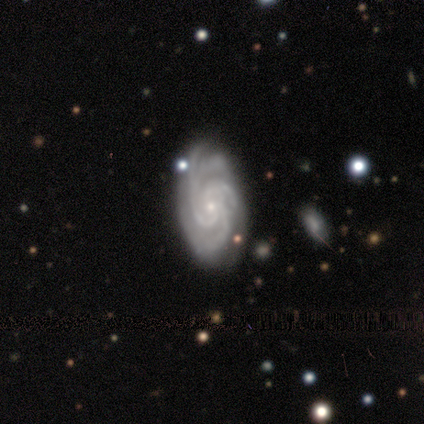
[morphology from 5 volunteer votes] Smooth or featured: featured or disk — 100%
Edge-on disk: no — 100%
Bar: no — 80% (strong — 20%)
Spiral arms: yes — 100%
Spiral winding: tight — 80% (medium — 20%)
Spiral arm count: 4 — 60% (3 — 20%)
Bulge size: small — 100%
Merging: none — 100%